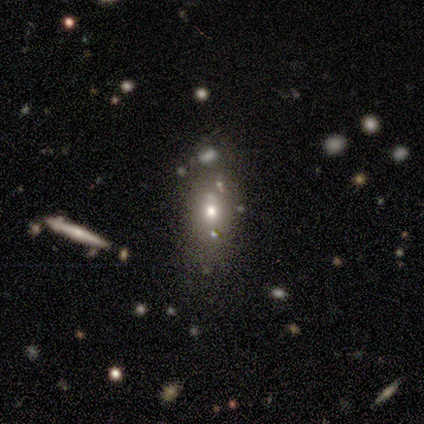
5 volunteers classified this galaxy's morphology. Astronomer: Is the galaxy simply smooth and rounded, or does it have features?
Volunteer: smooth — 40%, tied with star or artifact at 40%.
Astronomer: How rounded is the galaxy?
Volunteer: round — 50%, tied with in between at 50%.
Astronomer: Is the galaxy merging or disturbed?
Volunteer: none — 67%.